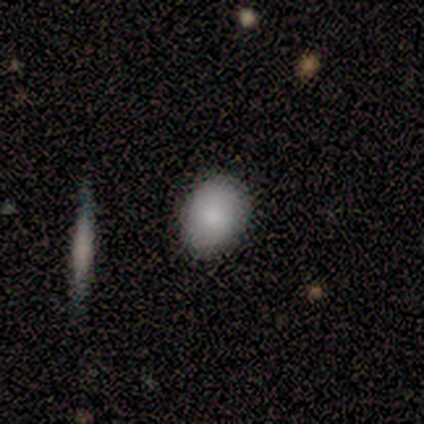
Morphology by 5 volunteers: smooth-or-featured: smooth: 40% (tied) | star or artifact: 40% (tied) | featured or disk: 20%
  how-rounded: round: 100% | in between: 0% | cigar-shaped: 0%
  merging: none: 100% | minor disturbance: 0% | major disturbance: 0% | merger: 0%